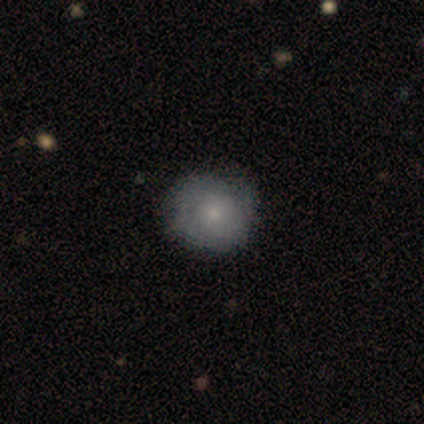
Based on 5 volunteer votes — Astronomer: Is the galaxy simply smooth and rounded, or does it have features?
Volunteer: smooth — 80%.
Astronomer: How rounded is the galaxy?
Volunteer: round — 75%.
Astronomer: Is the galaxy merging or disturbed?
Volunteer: none — 80%.